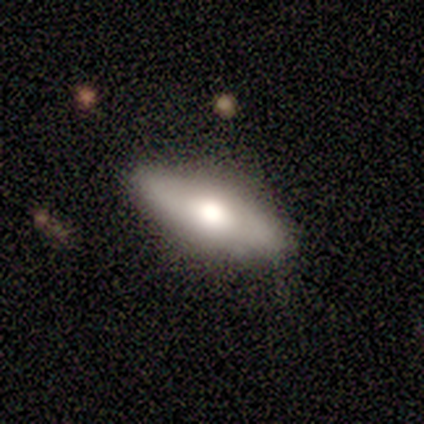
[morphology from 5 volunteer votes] Smooth or featured? featured or disk (60%)
Edge-on disk? yes (67%)
Edge-on bulge? rounded (100%)
Merging? none (100%)